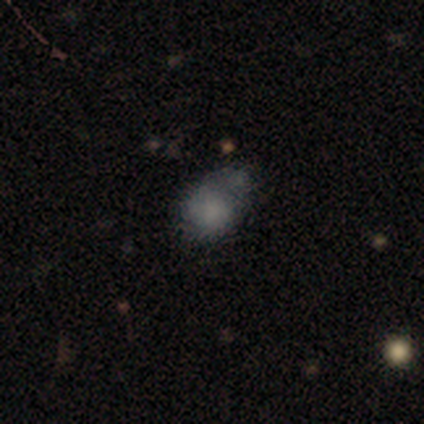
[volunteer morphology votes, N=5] This is clearly a smooth galaxy (80%). How rounded: possibly round (50%, tied with in between). Merging: marginally major disturbance (40%).